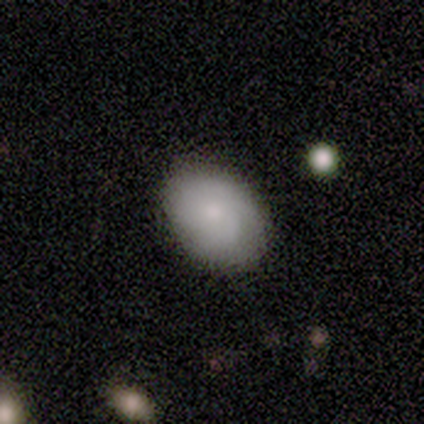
smooth_or_featured: smooth (p=0.60) [alt: featured or disk p=0.40]
how_rounded: in between (p=0.67) [alt: round p=0.33]
merging: none (p=0.80) [alt: minor disturbance p=0.20]